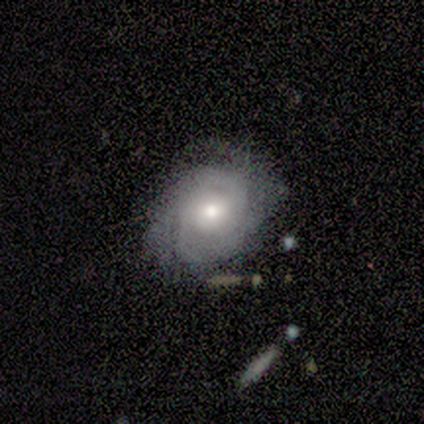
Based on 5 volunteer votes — smooth-or-featured: featured or disk: 80% | smooth: 20% | star or artifact: 0%
  disk-edge-on: no: 100% | yes: 0%
    bar: weak: 50% (tied) | no: 50% (tied) | strong: 0%
    has-spiral-arms: yes: 100% | no: 0%
      spiral-winding: tight: 75% | medium: 25% | loose: 0%
      spiral-arm-count: 2: 25% (tied) | 3: 25% (tied) | 4: 25% (tied) | can't tell: 25% (tied) | 1: 0% | more than 4: 0%
    bulge-size: moderate: 75% | small: 25% | dominant: 0% | large: 0% | none: 0%
  merging: none: 80% | minor disturbance: 20% | major disturbance: 0% | merger: 0%